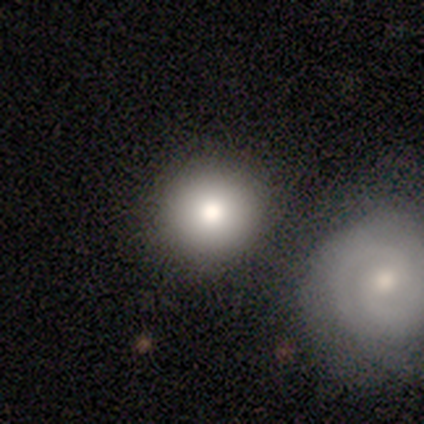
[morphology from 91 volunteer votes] A smooth galaxy with no disk features (71%) that is round (98%).

Vote fractions:
- Smooth or featured? smooth: 71% / featured or disk: 21% / star or artifact: 8%
- How rounded? round: 98% / in between: 2% / cigar-shaped: 0%
- Merging? none: 70% / merger: 13% / minor disturbance: 10% / major disturbance: 7%